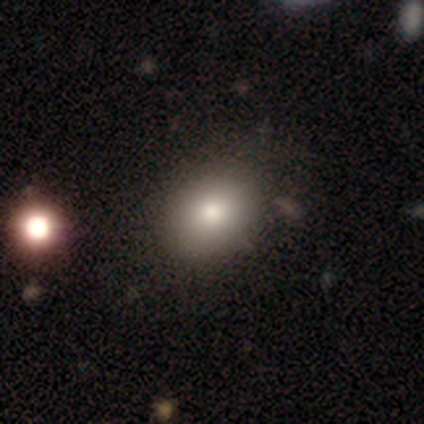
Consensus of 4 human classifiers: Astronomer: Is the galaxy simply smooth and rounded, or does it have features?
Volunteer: star or artifact — 100%.